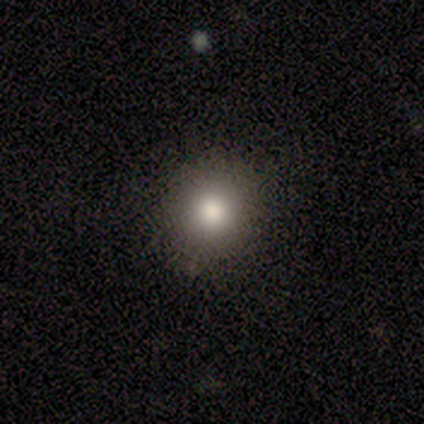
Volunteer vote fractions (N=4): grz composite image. It shows a smooth galaxy with no disk features (100%) that is round (100%). Merging: none (100%).